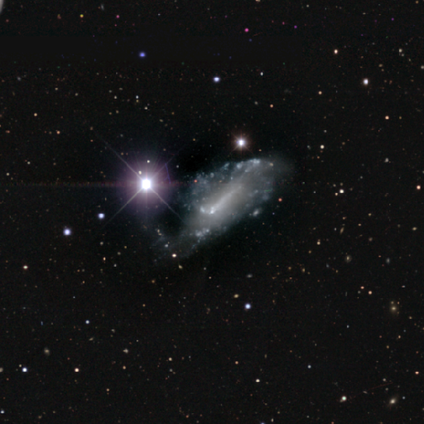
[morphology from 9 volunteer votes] type=star or artifact (67%).